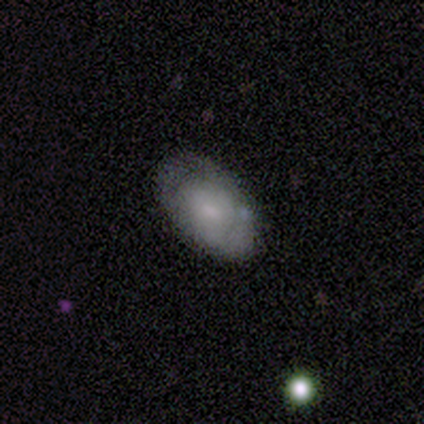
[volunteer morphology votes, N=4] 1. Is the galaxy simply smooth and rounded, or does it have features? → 100% featured or disk, 0% smooth, 0% star or artifact.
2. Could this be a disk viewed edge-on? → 75% no, 25% yes.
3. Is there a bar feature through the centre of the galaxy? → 100% no, 0% strong, 0% weak.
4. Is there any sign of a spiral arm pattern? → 100% no, 0% yes.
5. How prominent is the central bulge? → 67% small, 33% moderate, 0% dominant, 0% large, 0% none.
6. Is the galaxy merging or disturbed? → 75% none, 25% minor disturbance, 0% major disturbance, 0% merger.